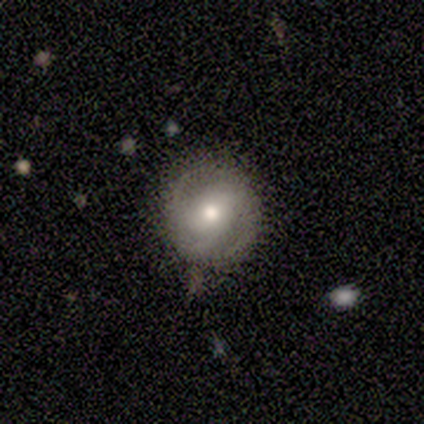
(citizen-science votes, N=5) Morphology: type=featured or disk (60%); edge-on=no (100%); bar=no (67%); spiral arms=yes (100%); winding=loose (67%); arm count=2 (100%); bulge=small (67%); merging=none (80%).